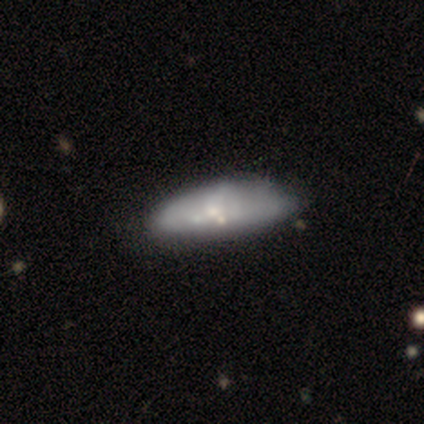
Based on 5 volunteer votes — Smooth or featured? 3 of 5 (60%) said smooth. How rounded? 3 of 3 (100%) said in between. Merging? 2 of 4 (50%, tied with minor disturbance) said none.